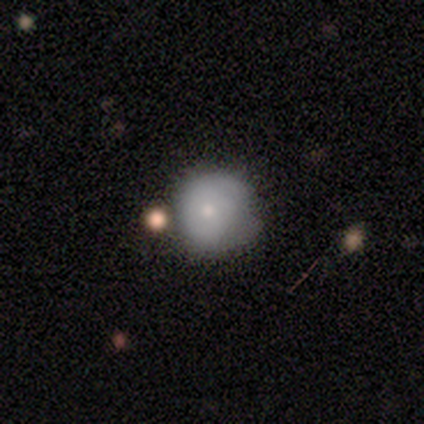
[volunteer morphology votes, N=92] type=smooth (67%); roundness=round (94%); merging=none (53%).